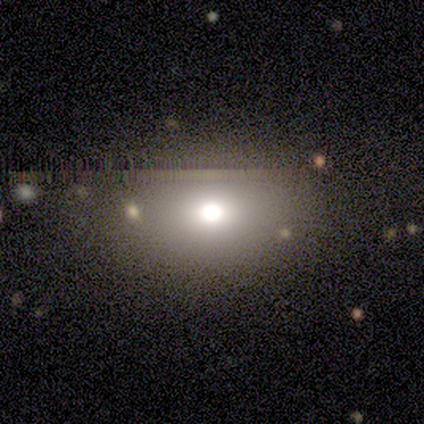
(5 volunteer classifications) Overall: smooth (60%; star or artifact 40%). How rounded: round (100%). Merging: none (33%, tied with minor disturbance and major disturbance).